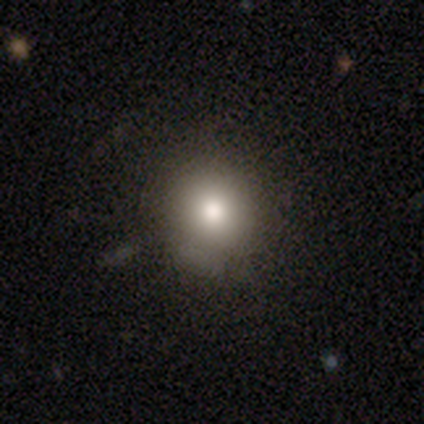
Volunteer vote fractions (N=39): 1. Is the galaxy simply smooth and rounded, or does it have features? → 79% smooth, 10% featured or disk, 10% star or artifact.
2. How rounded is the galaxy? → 94% round, 6% in between, 0% cigar-shaped.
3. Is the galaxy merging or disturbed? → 80% none, 11% minor disturbance, 9% major disturbance, 0% merger.